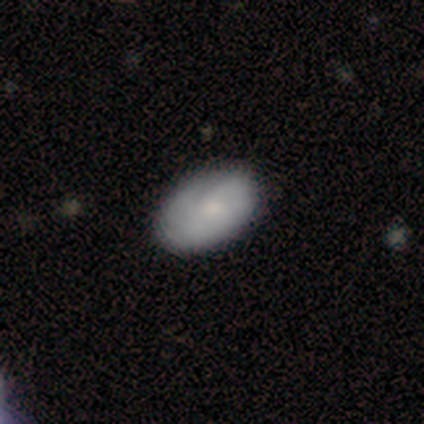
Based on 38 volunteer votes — Smooth or featured? smooth (71%)
How rounded? in between (93%)
Merging? none (68%)